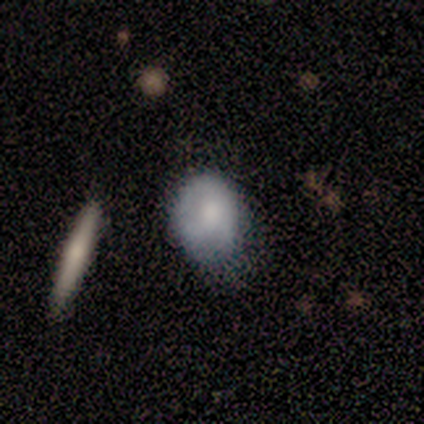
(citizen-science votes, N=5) smooth 60%, featured or disk 40%, star or artifact 0%. Down the decision tree: how rounded — in between (67%); merging — none (40%, tied with major disturbance).